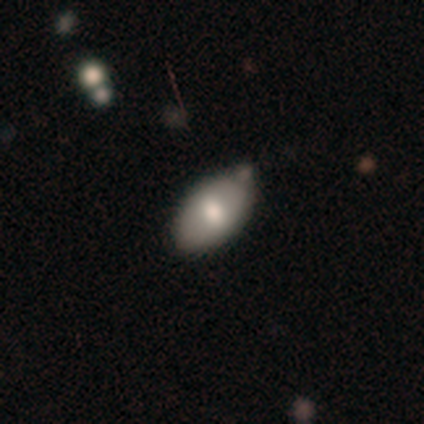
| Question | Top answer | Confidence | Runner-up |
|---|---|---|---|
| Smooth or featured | smooth | 71% | star or artifact (29%) |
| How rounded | in between | 100% | — |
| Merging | minor disturbance | 80% | none (20%) |